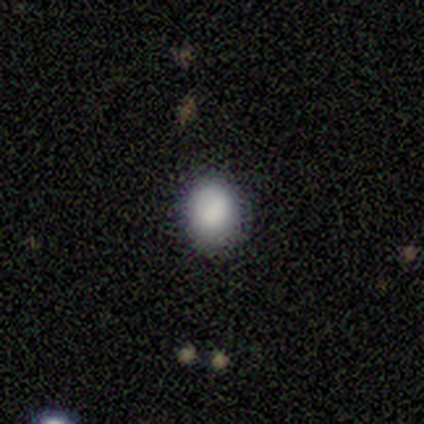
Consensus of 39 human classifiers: smooth_or_featured: smooth (p=0.85) [alt: featured or disk p=0.08]
how_rounded: round (p=0.76) [alt: in between p=0.24]
merging: none (p=0.89) [alt: minor disturbance p=0.08]